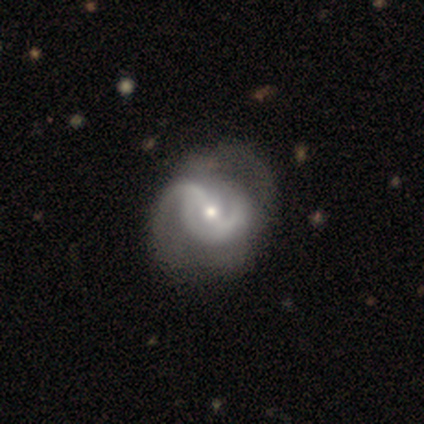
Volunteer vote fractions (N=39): A featured or disk galaxy (92%) with a weak bar (44%), 2 (50%) medium (60%) spiral arms (83%) and a small central bulge (58%). Merging: none (37%).